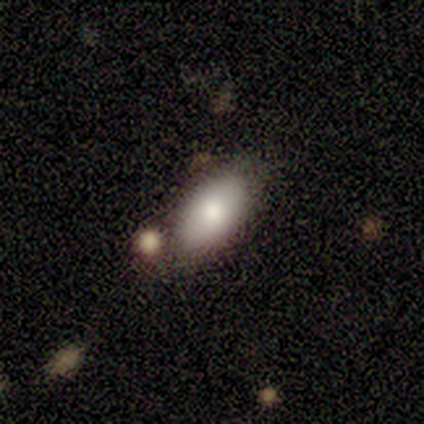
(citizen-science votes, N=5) This appears to be a smooth galaxy with no disk features (80%) that is in between round and cigar-shaped (100%). Merging: none (50%).